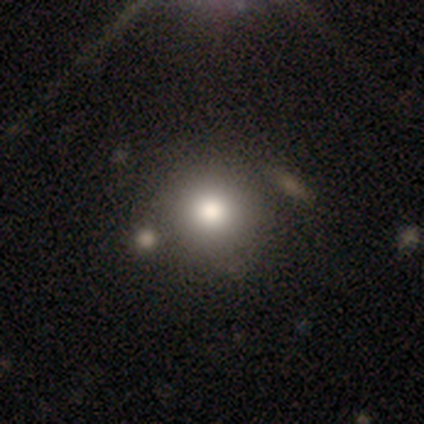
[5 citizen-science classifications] Smooth or featured?
  - smooth: 40% * (tied)
  - featured or disk: 40% * (tied)
  - star or artifact: 20%
How rounded?
  - round: 100% *
  - in between: 0%
  - cigar-shaped: 0%
Merging?
  - none: 100% *
  - minor disturbance: 0%
  - major disturbance: 0%
  - merger: 0%